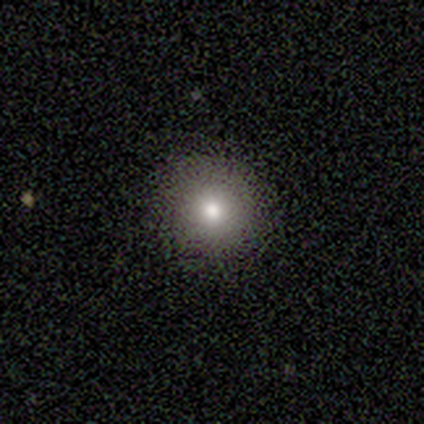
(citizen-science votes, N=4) Overall: smooth (100%). How rounded: round (100%). Merging: none (100%).